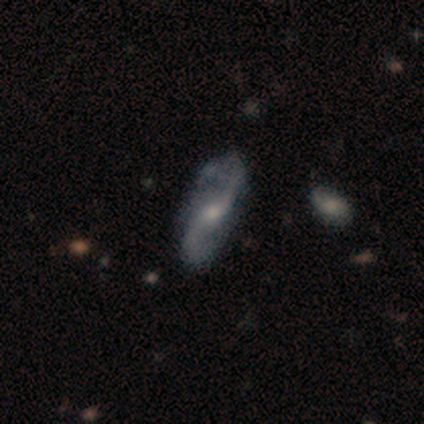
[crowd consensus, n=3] featured or disk 100%, smooth 0%, star or artifact 0%. Down the decision tree: edge-on disk — no (67%); bar — weak (50%, tied with no); spiral arms — yes (50%, tied with no); spiral arm count — 2 (100%); spiral winding — medium (100%); bulge size — moderate (50%, tied with small); merging — none (100%).